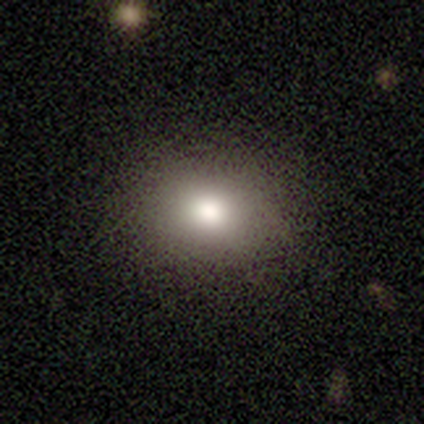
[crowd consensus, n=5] Morphology: type=smooth (100%); roundness=round (60%); merging=none (100%).